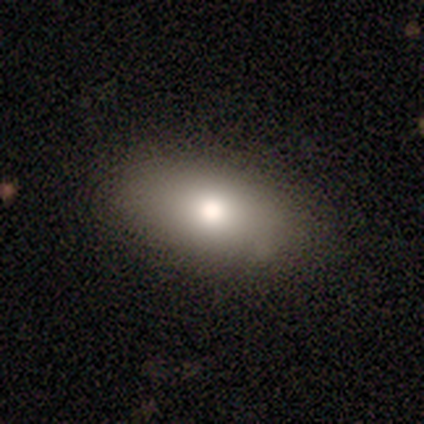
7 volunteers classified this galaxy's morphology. Smooth or featured?
  - smooth: 71% *
  - featured or disk: 14%
  - star or artifact: 14%
How rounded?
  - in between: 80% *
  - cigar-shaped: 20%
  - round: 0%
Merging?
  - none: 83% *
  - minor disturbance: 17%
  - major disturbance: 0%
  - merger: 0%